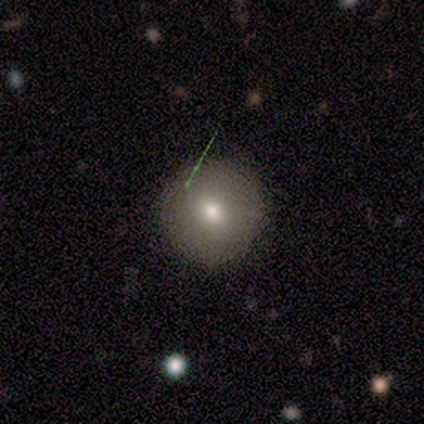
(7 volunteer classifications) Smooth or featured: smooth — 100%
How rounded: round — 100%
Merging: none — 100%